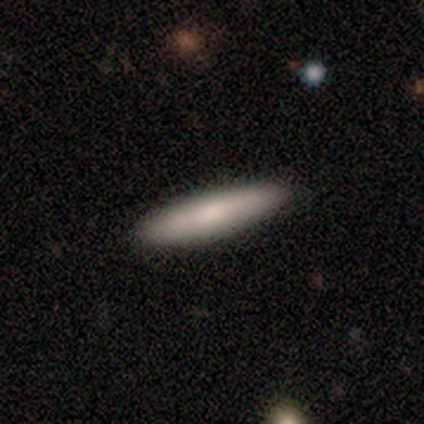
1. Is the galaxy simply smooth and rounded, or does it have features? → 80% smooth, 20% featured or disk, 0% star or artifact.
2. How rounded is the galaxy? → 100% cigar-shaped, 0% round, 0% in between.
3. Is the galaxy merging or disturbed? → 100% none, 0% minor disturbance, 0% major disturbance, 0% merger.